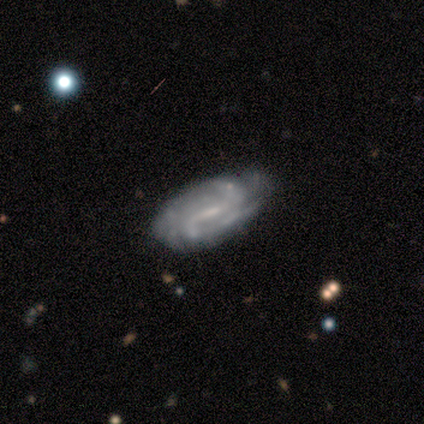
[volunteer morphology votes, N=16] Q: Smooth or featured?
A: featured or disk (94%); runner-up: smooth (6%)
Q: Edge-on disk?
A: no (100%)
Q: Bar?
A: weak (60%); runner-up: strong (33%)
Q: Spiral arms?
A: yes (100%)
Q: Spiral winding?
A: tight (53%); runner-up: loose (33%)
Q: Spiral arm count?
A: can't tell (53%); runner-up: 2 (40%)
Q: Bulge size?
A: small (53%); runner-up: moderate (27%)
Q: Merging?
A: none (75%); runner-up: minor disturbance (19%)